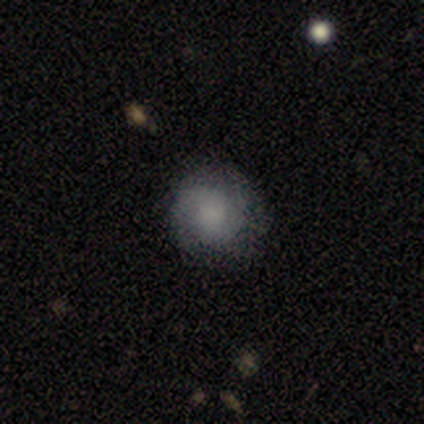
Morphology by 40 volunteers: Smooth or featured?
  - featured or disk: 52% *
  - smooth: 38%
  - star or artifact: 10%
Edge-on disk?
  - no: 100% *
  - yes: 0%
Bar?
  - no: 81% *
  - weak: 19%
  - strong: 0%
Spiral arms?
  - yes: 86% *
  - no: 14%
Spiral winding?
  - tight: 50% *
  - medium: 28%
  - loose: 22%
Spiral arm count?
  - 2: 78% *
  - can't tell: 17%
  - 3: 6%
  - 1: 0%
  - 4: 0%
  - more than 4: 0%
Bulge size?
  - small: 43% *
  - large: 24%
  - moderate: 19%
  - none: 14%
  - dominant: 0%
Merging?
  - none: 78% *
  - minor disturbance: 19%
  - merger: 3%
  - major disturbance: 0%